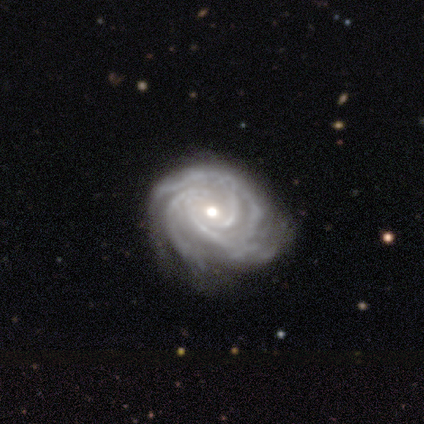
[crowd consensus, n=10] smooth-or-featured: featured or disk: 100% | smooth: 0% | star or artifact: 0%
  disk-edge-on: no: 100% | yes: 0%
    bar: no: 60% | weak: 30% | strong: 10%
    has-spiral-arms: yes: 100% | no: 0%
      spiral-winding: tight: 100% | medium: 0% | loose: 0%
      spiral-arm-count: 3: 30% (tied) | 4: 30% (tied) | more than 4: 20% | 2: 10% | can't tell: 10% | 1: 0%
    bulge-size: moderate: 70% | small: 30% | dominant: 0% | large: 0% | none: 0%
  merging: none: 70% | minor disturbance: 20% | major disturbance: 10% | merger: 0%